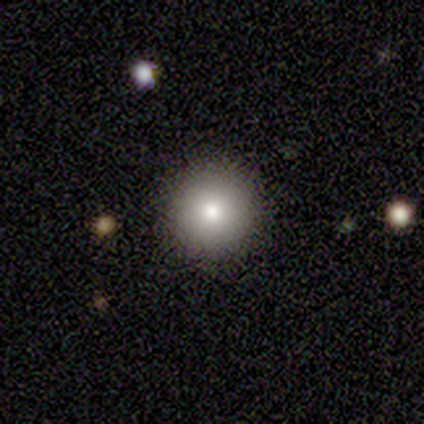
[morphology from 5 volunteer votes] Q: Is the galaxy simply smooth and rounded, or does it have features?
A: smooth — 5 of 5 (100%).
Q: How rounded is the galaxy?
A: round — 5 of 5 (100%).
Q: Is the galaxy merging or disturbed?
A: none — 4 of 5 (80%).